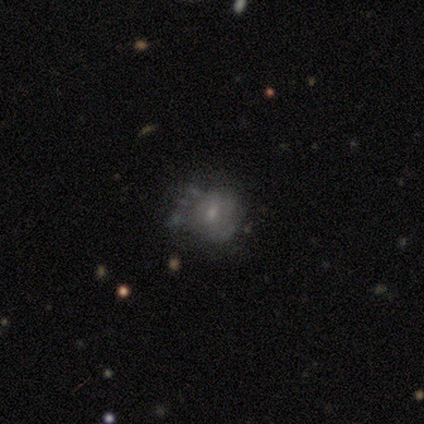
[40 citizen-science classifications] This is possibly a featured or disk galaxy (57%). It is clearly not viewed edge-on (100%). Bar: clearly no (83%). Spiral arm pattern: likely no (70%). Central bulge: likely small (61%). Merging: marginally major disturbance (32%).